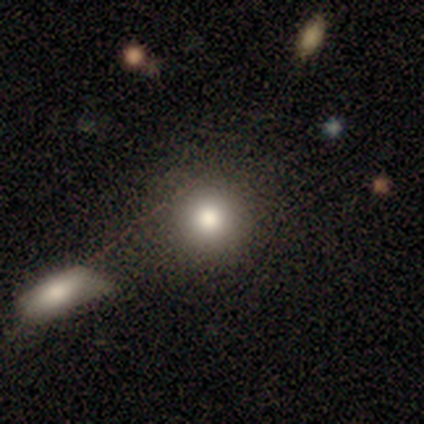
This is clearly a smooth galaxy (100%). How rounded: clearly round (100%). Merging: clearly none (80%).